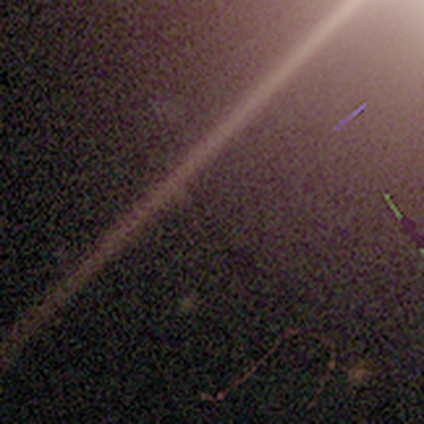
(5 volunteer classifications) Volunteers were most divided on "smooth or featured": star or artifact: 80%, featured or disk: 20%, smooth: 0%.